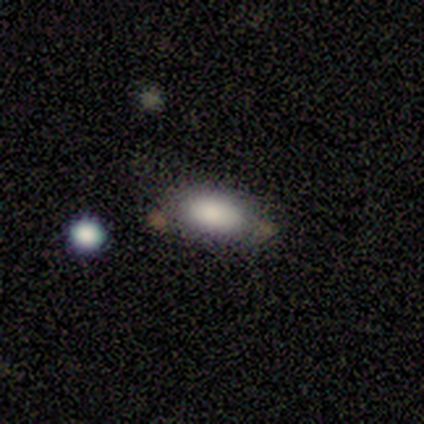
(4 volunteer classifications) Volunteers were most divided on "merging": merger: 50%, none: 25%, minor disturbance: 25%, major disturbance: 0%. More confident: how rounded — in between (100%); smooth or featured — smooth (75%).